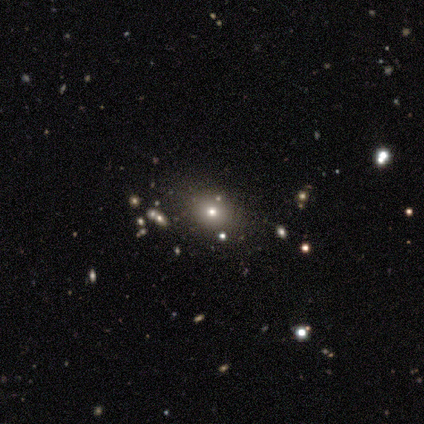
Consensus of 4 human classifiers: smooth 50% (tied), star or artifact 50% (tied), featured or disk 0%. Down the decision tree: how rounded — round (50%, tied with in between); merging — minor disturbance (100%).